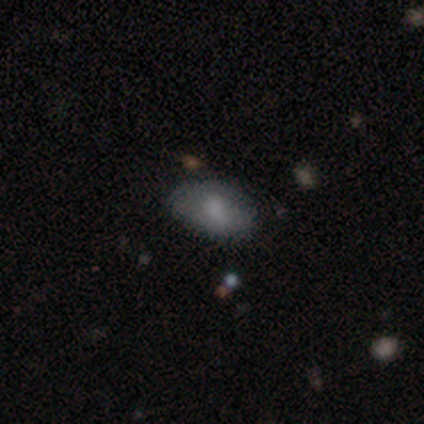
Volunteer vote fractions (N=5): Morphology: type=smooth (80%); roundness=in between (75%); merging=none (75%).